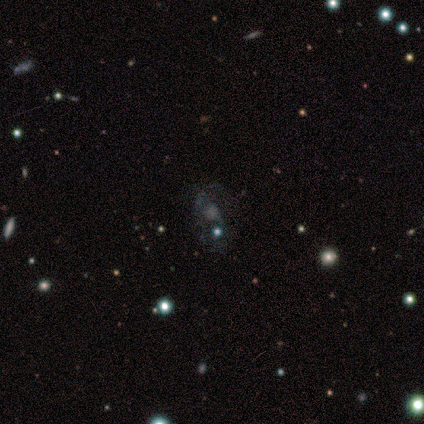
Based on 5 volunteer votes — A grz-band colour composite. It shows a featured or disk galaxy (60%) with no bar (67%), no spiral arms (67%) and a moderate central bulge (33%, tied with small and none). Merging: none (67%).